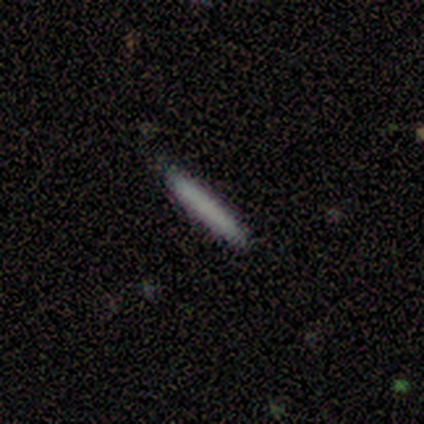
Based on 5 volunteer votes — smooth-or-featured: smooth: 60% | featured or disk: 40% | star or artifact: 0%
  how-rounded: cigar-shaped: 100% | round: 0% | in between: 0%
  merging: none: 80% | minor disturbance: 20% | major disturbance: 0% | merger: 0%